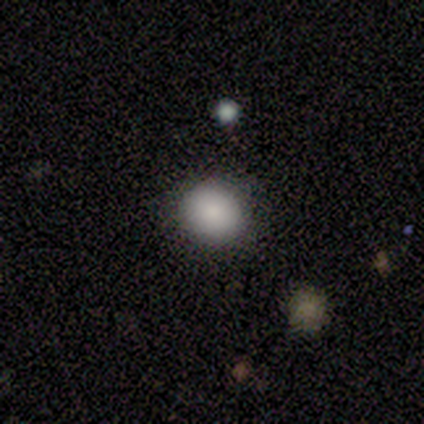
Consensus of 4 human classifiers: This is clearly a smooth galaxy (100%). How rounded: clearly round (100%). Merging: likely none (75%).